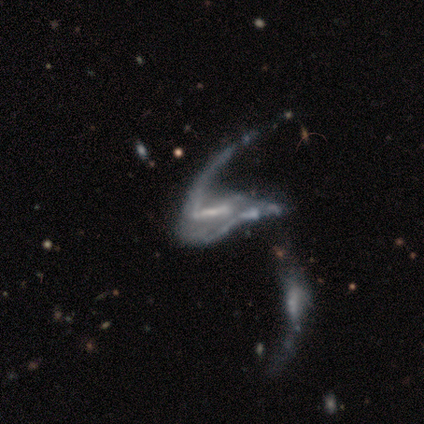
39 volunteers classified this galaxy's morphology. This is clearly a featured or disk galaxy (87%). It is clearly not viewed edge-on (100%). Bar: marginally no (38%). Spiral arm pattern: likely yes (62%). Spiral arm count: possibly 2 (48%). Spiral winding: likely loose (76%). Central bulge: marginally none (38%). Merging: possibly merger (51%).